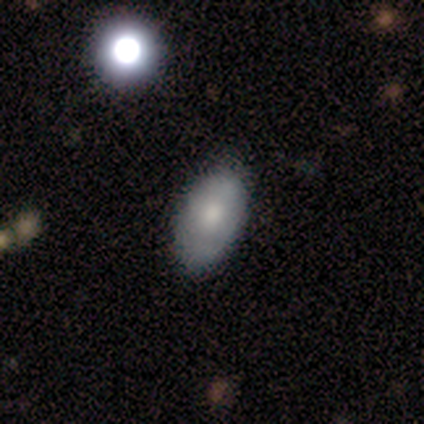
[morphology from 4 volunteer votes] Smooth or featured? smooth (75%)
How rounded? in between (100%)
Merging? none (100%)